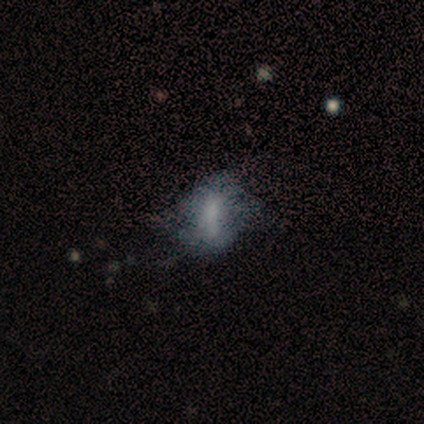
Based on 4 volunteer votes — A featured or disk galaxy (75%) with a weak bar (67%), no spiral arms (67%) and a large central bulge (33%, tied with small and none).

Vote fractions:
- Smooth or featured? featured or disk: 75% / star or artifact: 25% / smooth: 0%
- Edge-on disk? no: 100% / yes: 0%
- Bar? weak: 67% / no: 33% / strong: 0%
- Spiral arms? no: 67% / yes: 33%
- Bulge size? large: 33% (tied) / small: 33% (tied) / none: 33% (tied) / dominant: 0% / moderate: 0%
- Merging? none: 33% (tied) / minor disturbance: 33% (tied) / major disturbance: 33% (tied) / merger: 0%